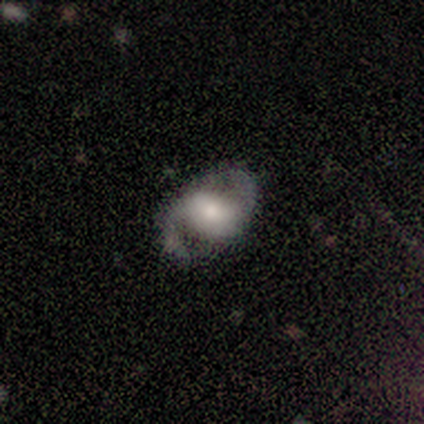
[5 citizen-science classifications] smooth-or-featured: featured or disk: 60% | smooth: 40% | star or artifact: 0%
  disk-edge-on: no: 100% | yes: 0%
    bar: no: 67% | weak: 33% | strong: 0%
    has-spiral-arms: yes: 100% | no: 0%
      spiral-winding: medium: 67% | loose: 33% | tight: 0%
      spiral-arm-count: 2: 100% | 1: 0% | 3: 0% | 4: 0% | more than 4: 0% | can't tell: 0%
    bulge-size: large: 33% (tied) | moderate: 33% (tied) | none: 33% (tied) | dominant: 0% | small: 0%
  merging: none: 80% | minor disturbance: 20% | major disturbance: 0% | merger: 0%